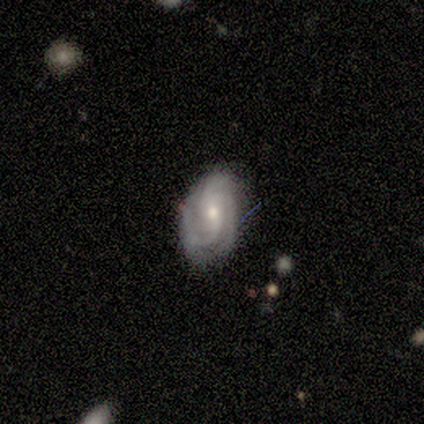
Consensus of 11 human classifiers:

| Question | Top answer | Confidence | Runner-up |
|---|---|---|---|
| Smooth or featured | featured or disk | 73% | star or artifact (18%) |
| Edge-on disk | no | 100% | — |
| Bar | weak | 50% | tied: no (50%) |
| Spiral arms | yes | 100% | — |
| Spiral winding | medium | 62% | tight (38%) |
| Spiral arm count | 2 | 38% | tied: 3 (38%) |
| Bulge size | small | 62% | moderate (38%) |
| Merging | none | 67% | minor disturbance (33%) |